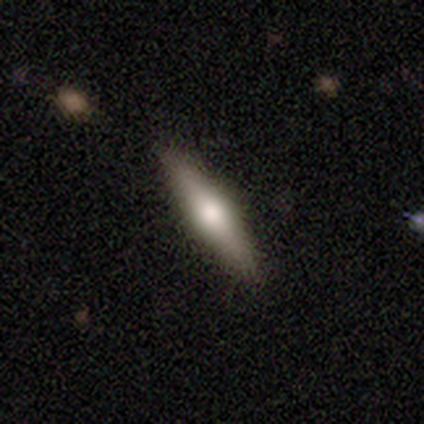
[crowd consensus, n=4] Smooth or featured: smooth — 50% (tied with featured or disk — 50%)
How rounded: cigar-shaped — 100%
Merging: none — 100%